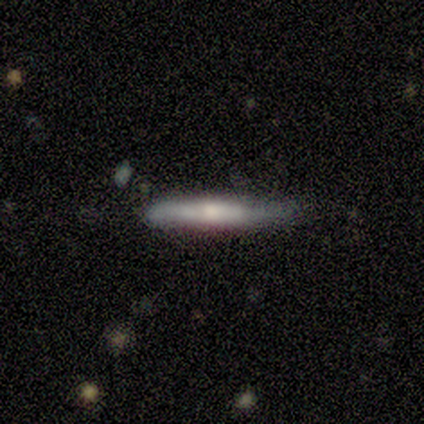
smooth 80%, featured or disk 20%, star or artifact 0%. Down the decision tree: how rounded — cigar-shaped (100%); merging — none (60%).